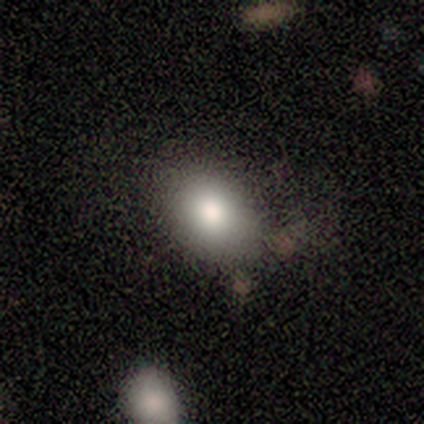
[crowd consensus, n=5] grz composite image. It shows a smooth galaxy with no disk features (80%) that is in between round and cigar-shaped (100%). Merging: none (75%).